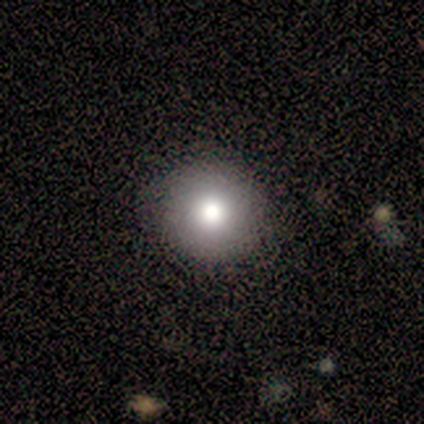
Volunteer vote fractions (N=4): Overall: smooth (75%). How rounded: round (100%). Merging: none (100%).